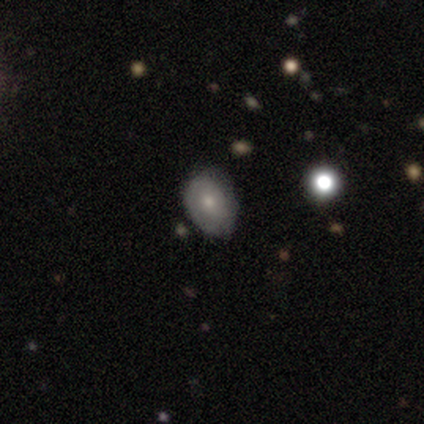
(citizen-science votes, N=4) Smooth or featured?
  - smooth: 75% *
  - featured or disk: 25%
  - star or artifact: 0%
How rounded?
  - in between: 100% *
  - round: 0%
  - cigar-shaped: 0%
Merging?
  - none: 50% * (tied)
  - minor disturbance: 50% * (tied)
  - major disturbance: 0%
  - merger: 0%